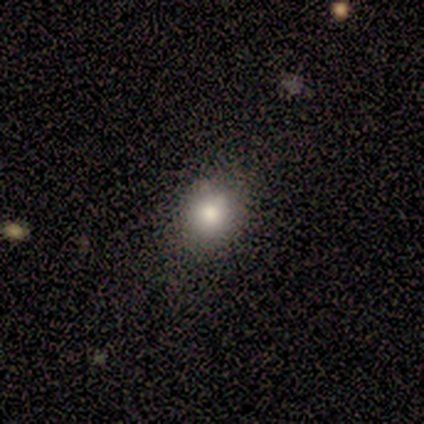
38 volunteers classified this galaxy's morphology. Q: Smooth or featured?
A: smooth (74%); runner-up: star or artifact (21%)
Q: How rounded?
A: round (75%); runner-up: in between (25%)
Q: Merging?
A: none (90%); runner-up: minor disturbance (10%)